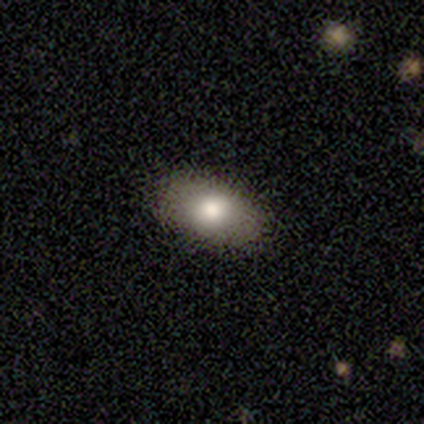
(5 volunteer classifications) Q: Smooth or featured?
A: smooth (80%); runner-up: featured or disk (20%)
Q: How rounded?
A: in between (100%)
Q: Merging?
A: none (100%)